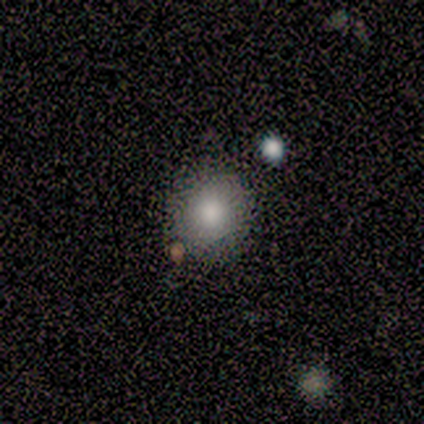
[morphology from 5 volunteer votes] smooth 80%, featured or disk 20%, star or artifact 0%. Down the decision tree: how rounded — round (100%); merging — none (80%).